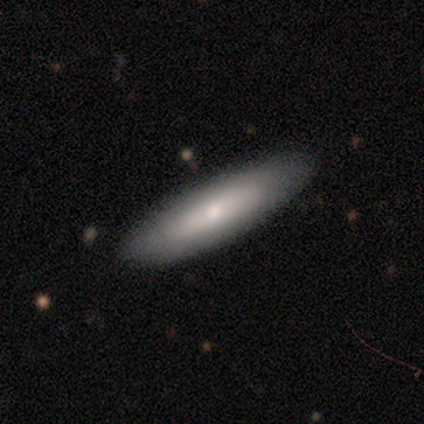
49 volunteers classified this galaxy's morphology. Smooth or featured? 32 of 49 (65%) said smooth. How rounded? 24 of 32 (75%) said cigar-shaped. Merging? 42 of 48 (88%) said none.